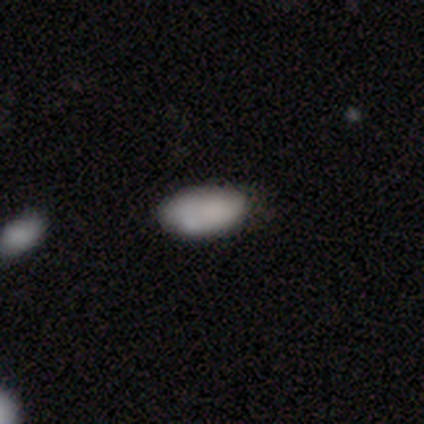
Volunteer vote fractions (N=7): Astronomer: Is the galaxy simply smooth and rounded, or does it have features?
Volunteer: smooth — 86%.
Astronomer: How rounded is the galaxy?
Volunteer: in between — 83%.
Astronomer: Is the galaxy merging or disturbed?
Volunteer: minor disturbance — 71%.